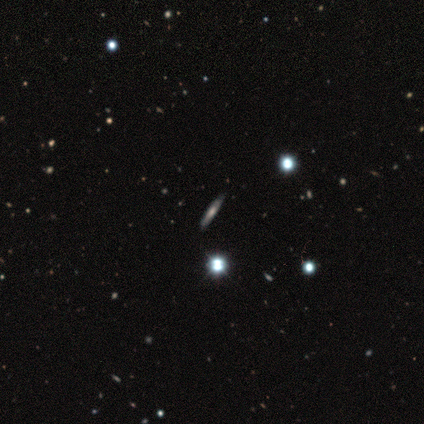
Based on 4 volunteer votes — smooth_or_featured: featured or disk (p=0.75) [alt: star or artifact p=0.25]
disk_edge_on: no (p=0.67) [alt: yes p=0.33]
bar: no (p=1.00)
has_spiral_arms: yes (p=0.50) [tied with: no p=0.50]
spiral_winding: medium (p=1.00)
spiral_arm_count: 3 (p=1.00)
bulge_size: dominant (p=0.50) [tied with: none p=0.50]
merging: none (p=0.33) [tied with: minor disturbance p=0.33, major disturbance p=0.33]